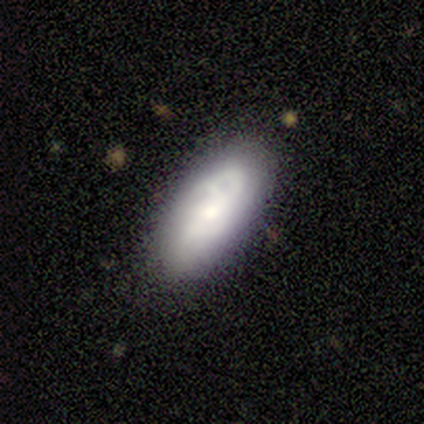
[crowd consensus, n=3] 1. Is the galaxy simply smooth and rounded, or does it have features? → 67% smooth, 33% featured or disk, 0% star or artifact.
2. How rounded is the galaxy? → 50% in between (tied), 50% cigar-shaped (tied), 0% round.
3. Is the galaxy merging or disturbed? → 67% none, 33% minor disturbance, 0% major disturbance, 0% merger.